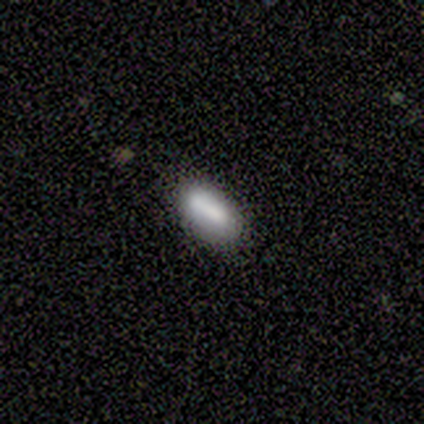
Smooth or featured? 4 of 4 (100%) said smooth. How rounded? 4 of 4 (100%) said in between. Merging? 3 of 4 (75%) said none.